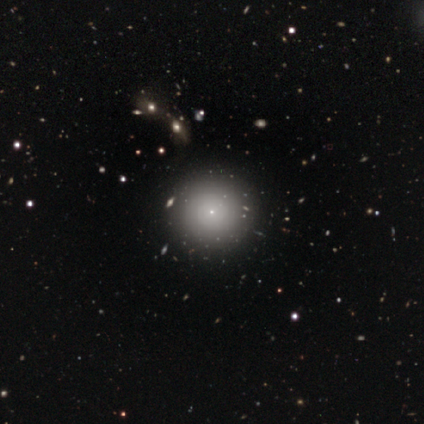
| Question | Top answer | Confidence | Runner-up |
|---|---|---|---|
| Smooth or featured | smooth | 62% | featured or disk (20%) |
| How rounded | round | 100% | — |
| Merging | none | 97% | minor disturbance (3%) |